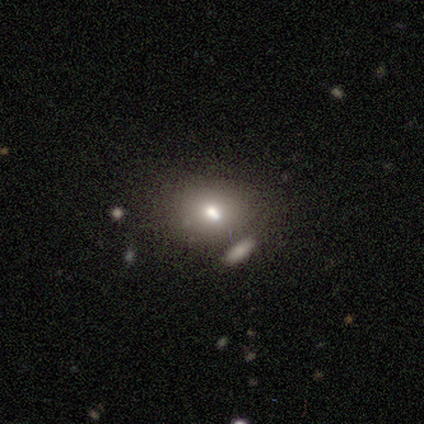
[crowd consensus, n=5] A smooth galaxy with no disk features (40%, tied with featured or disk) that is round (50%, tied with in between). Merging: none (50%, tied with minor disturbance).